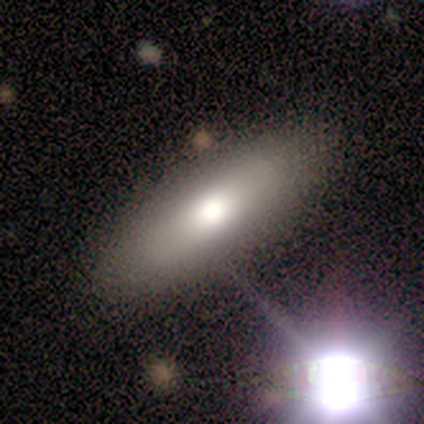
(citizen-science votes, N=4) smooth 100%, featured or disk 0%, star or artifact 0%. Down the decision tree: how rounded — in between (75%); merging — none (75%).